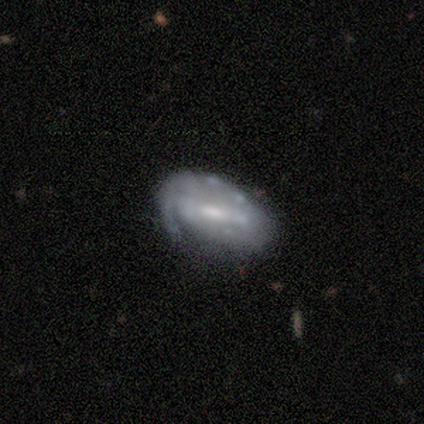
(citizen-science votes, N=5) smooth_or_featured: smooth (p=0.60) [alt: featured or disk p=0.40]
how_rounded: in between (p=1.00)
merging: none (p=0.40) [tied with: minor disturbance p=0.40]